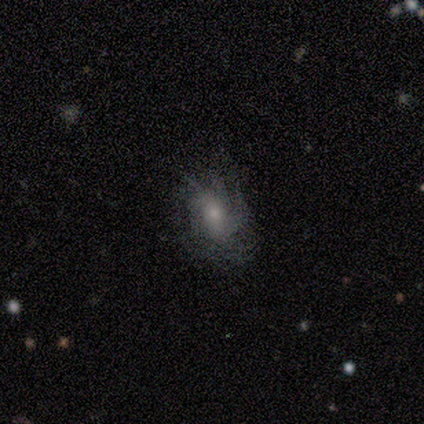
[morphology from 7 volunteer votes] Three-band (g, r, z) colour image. It shows a featured or disk galaxy (71%) with no bar (80%), tight (60%) spiral arms (100%) and a moderate central bulge (60%). Merging: none (86%).